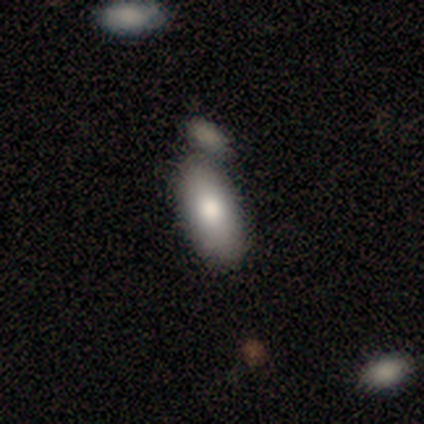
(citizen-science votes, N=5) smooth_or_featured: smooth (p=0.80) [alt: featured or disk p=0.20]
how_rounded: in between (p=1.00)
merging: none (p=0.60) [alt: minor disturbance p=0.40]